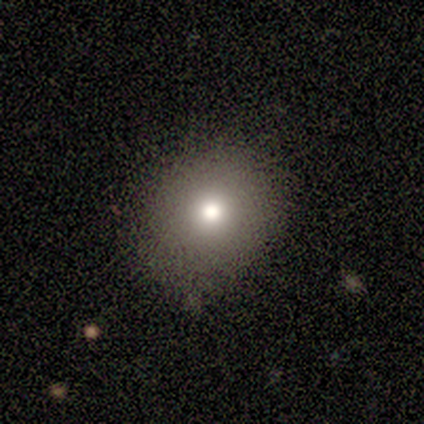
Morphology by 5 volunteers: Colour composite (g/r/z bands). It shows a smooth galaxy with no disk features (80%) that is round (75%). Merging: minor disturbance (50%).